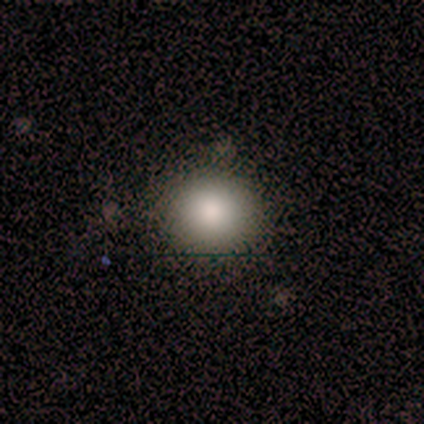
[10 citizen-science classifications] A smooth galaxy with no disk features (60%) that is round (100%).

Vote fractions:
- Smooth or featured? smooth: 60% / star or artifact: 30% / featured or disk: 10%
- How rounded? round: 100% / in between: 0% / cigar-shaped: 0%
- Merging? none: 57% / minor disturbance: 43% / major disturbance: 0% / merger: 0%